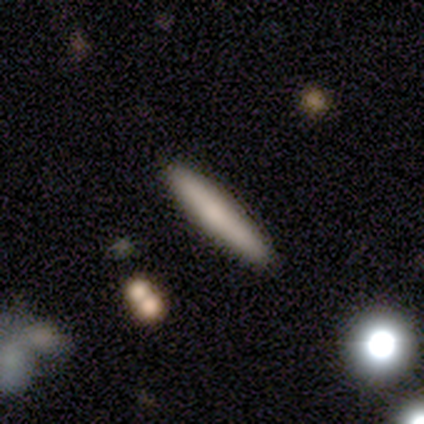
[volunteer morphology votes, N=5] This appears to be a smooth galaxy with no disk features (80%) that is cigar-shaped (100%). Merging: none (100%).